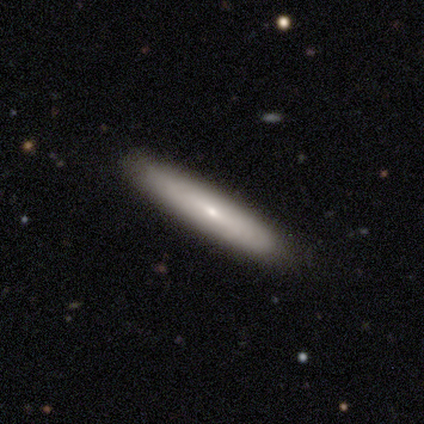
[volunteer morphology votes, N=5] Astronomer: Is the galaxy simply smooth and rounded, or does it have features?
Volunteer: smooth — 60% (runner-up: featured or disk, 40%).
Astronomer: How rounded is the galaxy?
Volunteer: in between — 67%.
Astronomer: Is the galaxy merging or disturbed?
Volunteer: none — 80%.